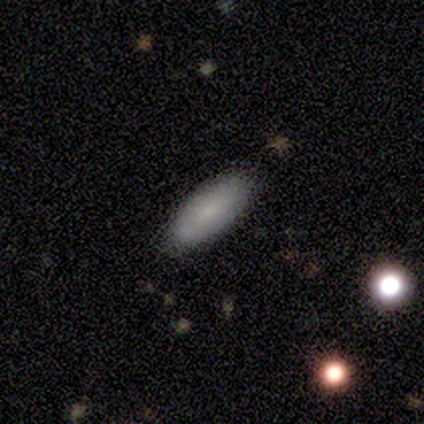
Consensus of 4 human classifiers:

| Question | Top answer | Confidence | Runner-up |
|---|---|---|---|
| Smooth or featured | smooth | 75% | star or artifact (25%) |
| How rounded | in between | 100% | — |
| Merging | minor disturbance | 67% | none (33%) |